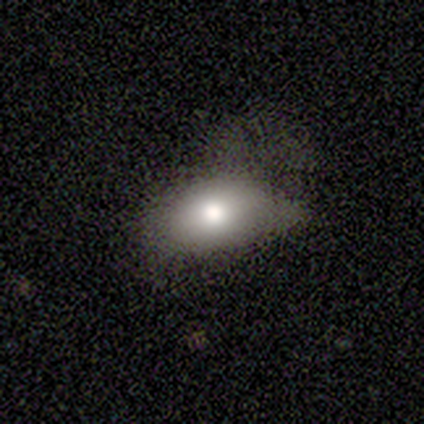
smooth_or_featured: smooth (p=0.71) [alt: featured or disk p=0.29]
how_rounded: in between (p=1.00)
merging: none (p=1.00)